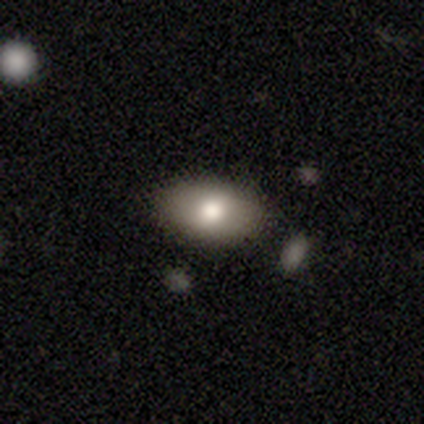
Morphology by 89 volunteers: Overall: smooth (73%). How rounded: in between (91%). Merging: none (81%).